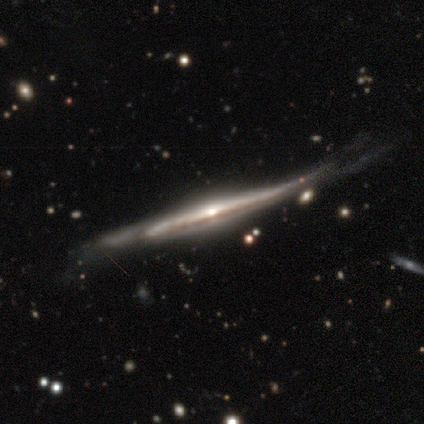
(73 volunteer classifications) Volunteers were most divided on "merging": minor disturbance: 24%, none: 21%, major disturbance: 9%, merger: 1%. More confident: edge-on disk — yes (97%); smooth or featured — featured or disk (85%); edge-on bulge — rounded (83%).